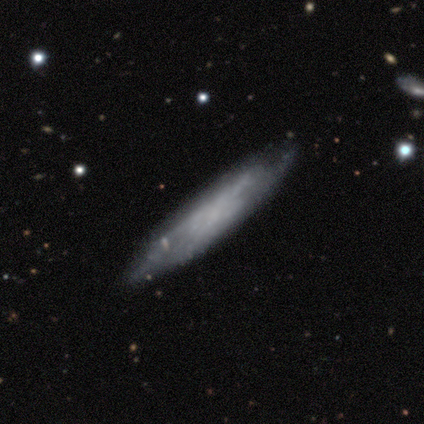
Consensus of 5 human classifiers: A featured or disk galaxy (60%) viewed edge-on (67%) with no central bulge (100%).

Vote fractions:
- Smooth or featured? featured or disk: 60% / smooth: 40% / star or artifact: 0%
- Edge-on disk? yes: 67% / no: 33%
- Edge-on bulge? none: 100% / boxy: 0% / rounded: 0%
- Merging? none: 80% / minor disturbance: 20% / major disturbance: 0% / merger: 0%